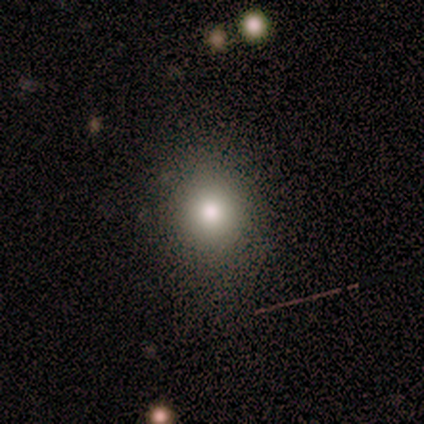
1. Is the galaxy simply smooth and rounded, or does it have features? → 50% star or artifact, 25% smooth, 25% featured or disk.